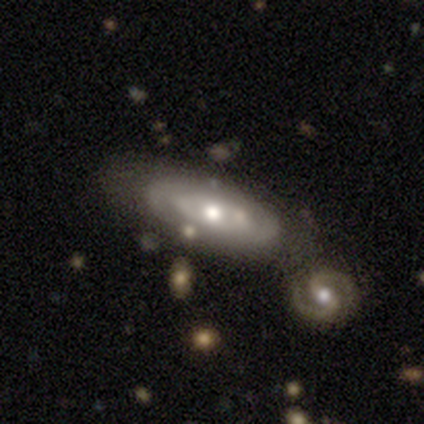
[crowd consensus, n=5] Smooth or featured: featured or disk — 80% (smooth — 20%)
Edge-on disk: no — 100%
Bar: weak — 50% (tied with no — 50%)
Spiral arms: yes — 50% (tied with no — 50%)
Spiral winding: tight — 50% (tied with loose — 50%)
Spiral arm count: 2 — 50% (tied with can't tell — 50%)
Bulge size: moderate — 100%
Merging: none — 60% (minor disturbance — 40%)